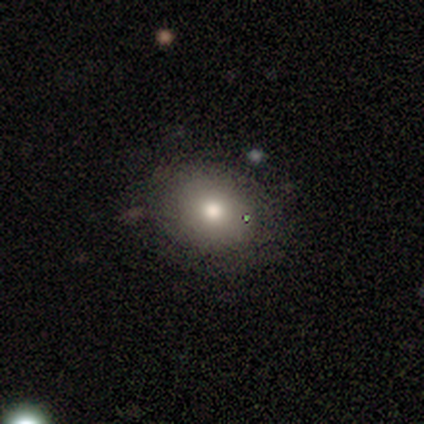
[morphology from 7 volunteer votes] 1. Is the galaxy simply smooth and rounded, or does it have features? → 86% smooth, 14% featured or disk, 0% star or artifact.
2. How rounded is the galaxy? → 50% round (tied), 50% in between (tied), 0% cigar-shaped.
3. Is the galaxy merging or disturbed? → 57% none, 29% major disturbance, 14% minor disturbance, 0% merger.